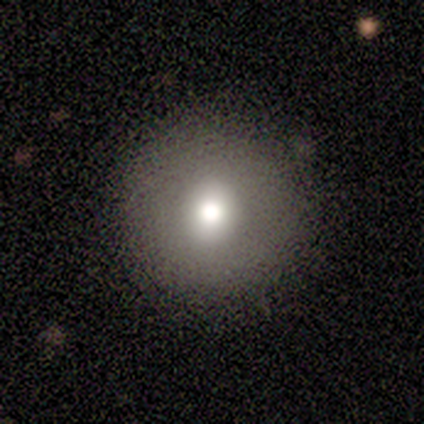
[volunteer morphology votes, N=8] smooth 88%, star or artifact 12%, featured or disk 0%. Down the decision tree: how rounded — round (100%); merging — none (86%).